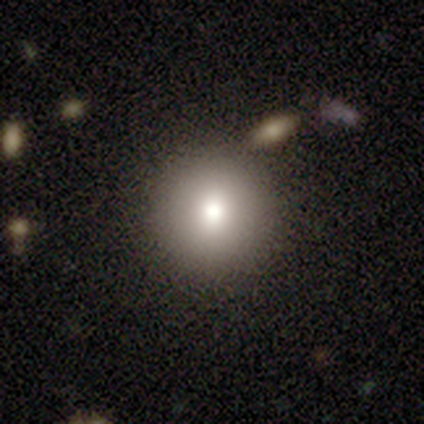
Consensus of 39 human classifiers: A smooth galaxy with no disk features (77%) that is round (100%). Merging: none (97%).